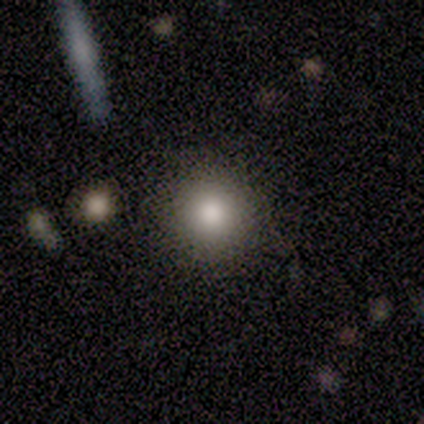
This is clearly a smooth galaxy (80%). How rounded: clearly round (100%). Merging: possibly none (50%, tied with minor disturbance).